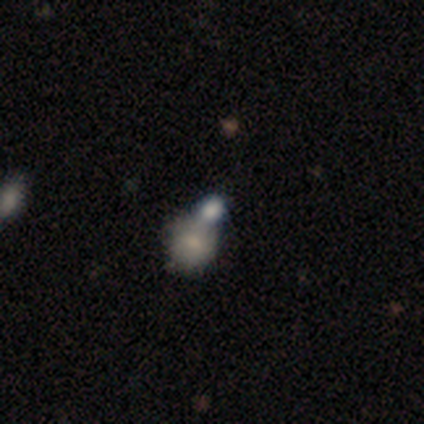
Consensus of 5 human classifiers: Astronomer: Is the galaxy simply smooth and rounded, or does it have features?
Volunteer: smooth — 60% (runner-up: star or artifact, 40%).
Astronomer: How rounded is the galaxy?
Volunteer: in between — 67%.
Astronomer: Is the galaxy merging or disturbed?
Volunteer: merger — 100%.